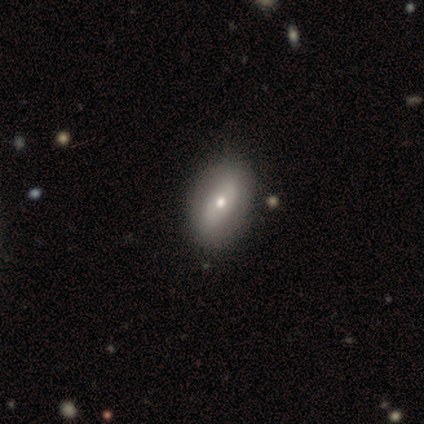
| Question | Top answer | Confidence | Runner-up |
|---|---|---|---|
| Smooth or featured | smooth | 60% | featured or disk (40%) |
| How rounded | in between | 67% | cigar-shaped (33%) |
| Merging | none | 80% | merger (20%) |